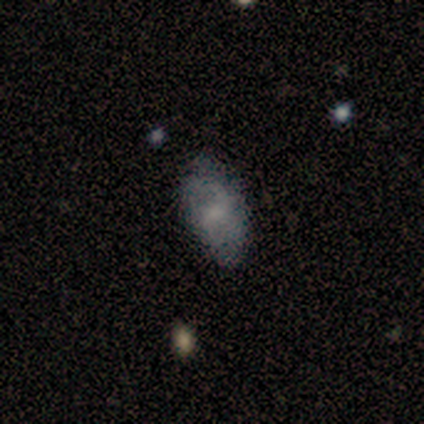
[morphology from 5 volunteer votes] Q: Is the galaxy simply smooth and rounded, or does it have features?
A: smooth — 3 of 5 (60%).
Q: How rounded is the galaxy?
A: in between — 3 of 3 (100%).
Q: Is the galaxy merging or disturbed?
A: none — 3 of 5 (60%).